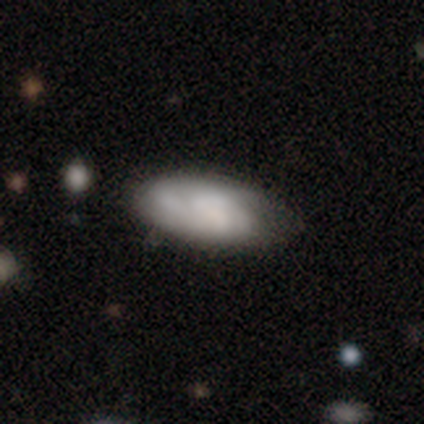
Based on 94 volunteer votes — smooth_or_featured: smooth (p=0.51) [alt: featured or disk p=0.45]
how_rounded: in between (p=0.90) [alt: cigar-shaped p=0.08]
merging: none (p=0.69) [alt: minor disturbance p=0.20]